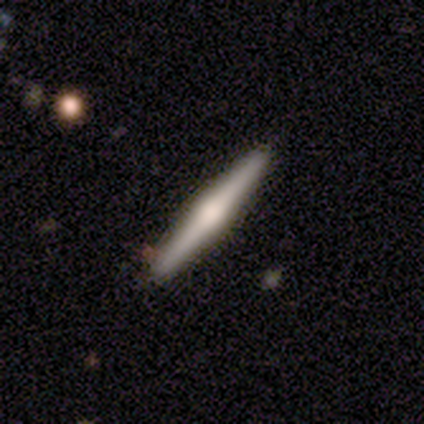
smooth_or_featured: featured or disk (p=0.40) [tied with: star or artifact p=0.40]
disk_edge_on: yes (p=1.00)
edge_on_bulge: rounded (p=1.00)
merging: none (p=1.00)